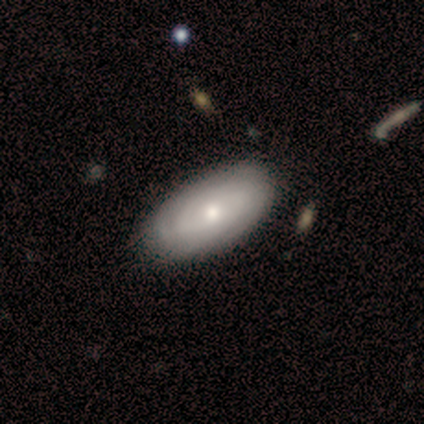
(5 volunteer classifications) featured or disk 60%, smooth 40%, star or artifact 0%. Down the decision tree: edge-on disk — no (100%); bar — no (100%); spiral arms — yes (100%); spiral arm count — can't tell (67%); spiral winding — medium (67%); bulge size — moderate (67%); merging — none (60%).